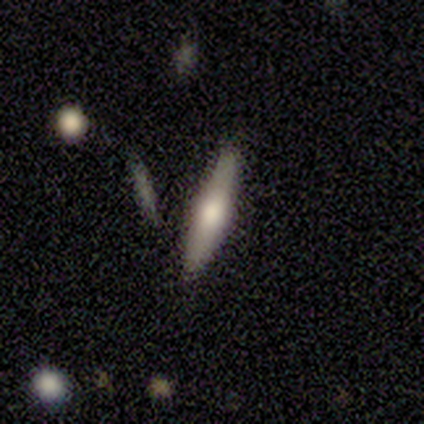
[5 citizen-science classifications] Smooth or featured? featured or disk (80%)
Edge-on disk? yes (100%)
Edge-on bulge? boxy (50%, tied with rounded)
Merging? none (60%)